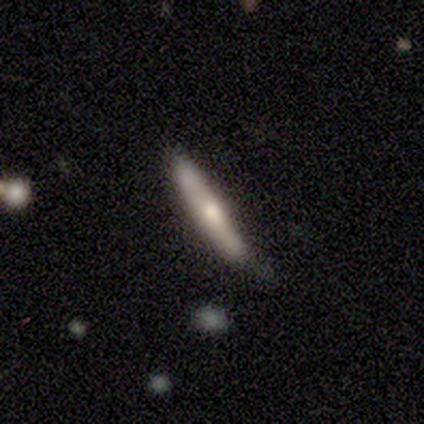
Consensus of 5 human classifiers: This appears to be a smooth galaxy with no disk features (60%) that is cigar-shaped (100%). Merging: none (80%).